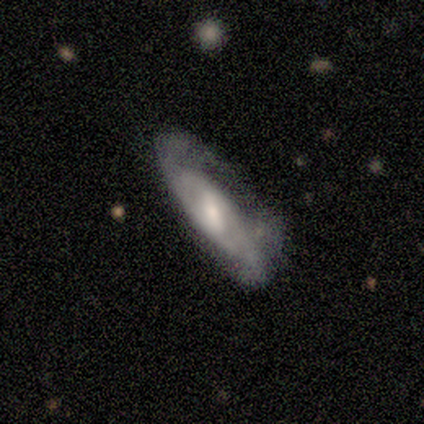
A featured or disk galaxy (100%) with a weak bar (60%), 2 (100%) tight (40%, tied with medium) spiral arms (100%) and a small central bulge (60%). Merging: minor disturbance (71%).